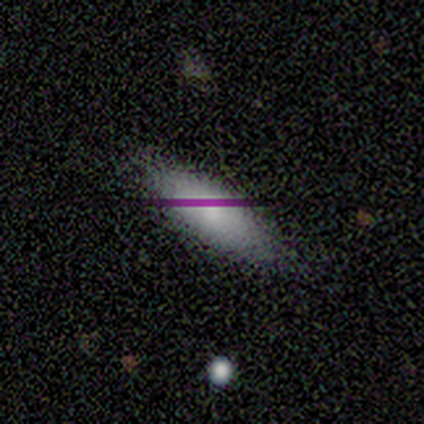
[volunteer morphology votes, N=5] A smooth galaxy with no disk features (100%) that is in between round and cigar-shaped (60%).

Vote fractions:
- Smooth or featured? smooth: 100% / featured or disk: 0% / star or artifact: 0%
- How rounded? in between: 60% / cigar-shaped: 40% / round: 0%
- Merging? none: 100% / minor disturbance: 0% / major disturbance: 0% / merger: 0%